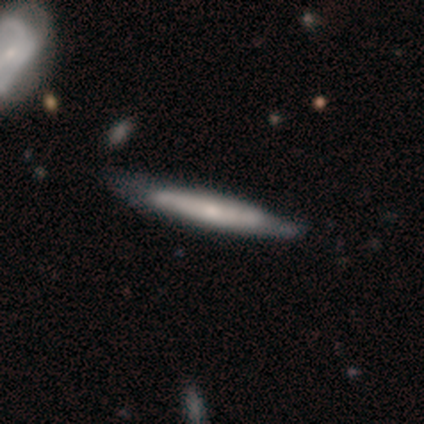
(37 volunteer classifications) smooth-or-featured: featured or disk: 59% | smooth: 38% | star or artifact: 3%
  disk-edge-on: yes: 82% | no: 18%
    edge-on-bulge: none: 56% | rounded: 44% | boxy: 0%
  merging: none: 42% | minor disturbance: 19% | major disturbance: 3% | merger: 0%